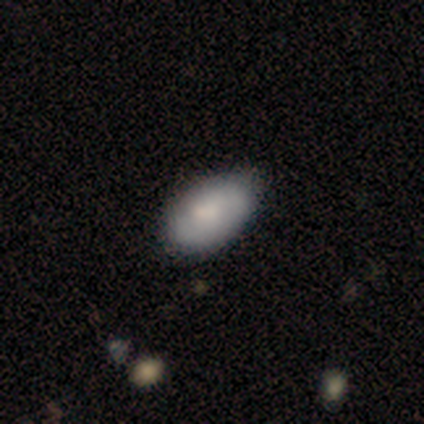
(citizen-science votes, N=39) A smooth galaxy with no disk features (72%) that is in between round and cigar-shaped (93%).

Vote fractions:
- Smooth or featured? smooth: 72% / featured or disk: 23% / star or artifact: 5%
- How rounded? in between: 93% / round: 7% / cigar-shaped: 0%
- Merging? none: 54% / minor disturbance: 16% / merger: 5% / major disturbance: 3%